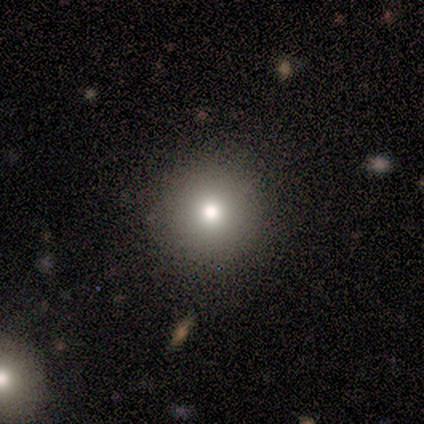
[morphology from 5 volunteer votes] Smooth or featured: smooth — 80% (star or artifact — 20%)
How rounded: round — 100%
Merging: minor disturbance — 50% (none — 25%)